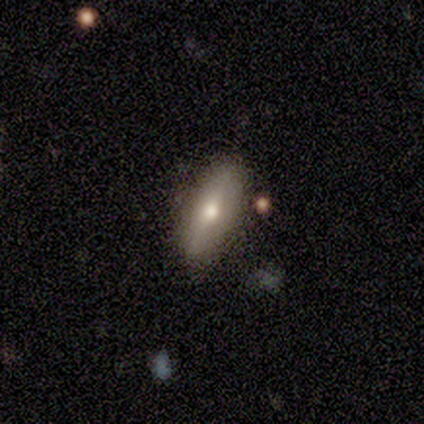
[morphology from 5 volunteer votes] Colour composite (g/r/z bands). It shows a featured or disk galaxy (60%) viewed edge-on (67%) with a rounded central bulge (100%). Merging: none (80%).